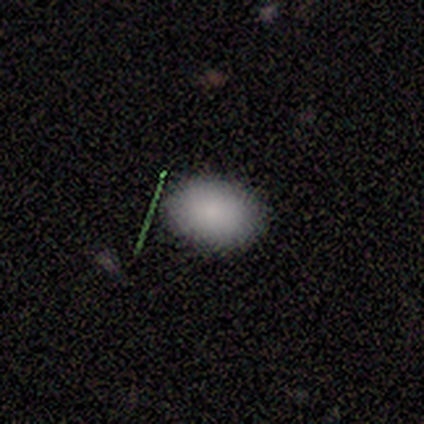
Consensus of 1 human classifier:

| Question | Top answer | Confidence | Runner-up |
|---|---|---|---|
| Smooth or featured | smooth | 100% | — |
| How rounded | in between | 100% | — |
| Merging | none | 100% | — |